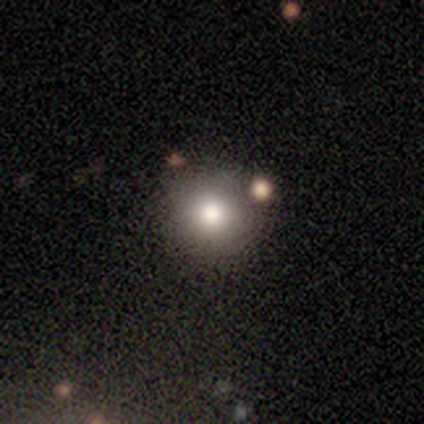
Smooth or featured? smooth (67%)
How rounded? round (100%)
Merging? none (67%)